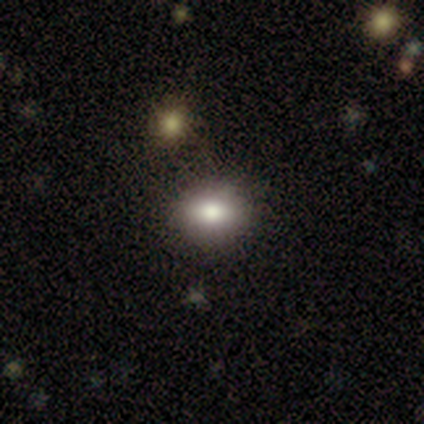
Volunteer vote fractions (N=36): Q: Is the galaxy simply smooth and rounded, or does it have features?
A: smooth — 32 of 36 (89%).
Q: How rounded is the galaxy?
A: round — 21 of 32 (66%).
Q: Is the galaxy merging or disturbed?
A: none — 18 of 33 (55%).